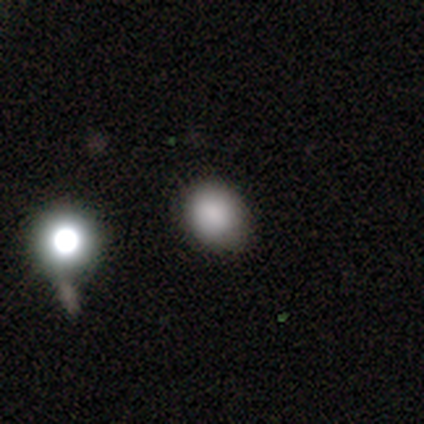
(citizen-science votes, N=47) Q: Smooth or featured?
A: smooth (83%); runner-up: featured or disk (11%)
Q: How rounded?
A: round (74%); runner-up: in between (23%)
Q: Merging?
A: none (66%); runner-up: minor disturbance (23%)